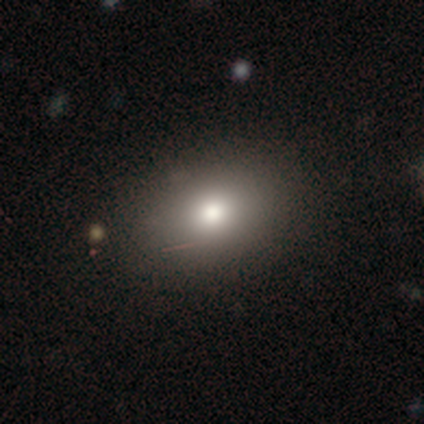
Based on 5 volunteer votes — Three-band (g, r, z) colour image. It shows a smooth galaxy with no disk features (80%) that is in between round and cigar-shaped (100%). Merging: none (60%).